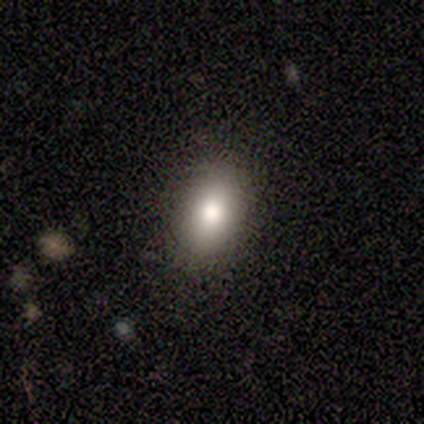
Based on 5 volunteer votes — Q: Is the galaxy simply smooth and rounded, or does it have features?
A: smooth — 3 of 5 (60%).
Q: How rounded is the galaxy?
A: in between — 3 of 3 (100%).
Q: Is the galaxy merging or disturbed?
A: none — 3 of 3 (100%).